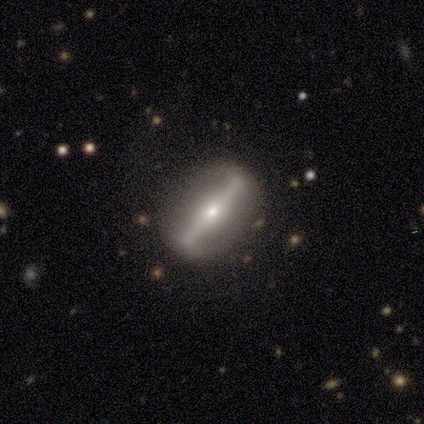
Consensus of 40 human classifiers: Smooth or featured: featured or disk — 80% (smooth — 15%)
Edge-on disk: no — 62% (yes — 38%)
Bar: strong — 95% (weak — 5%)
Spiral arms: no — 75% (yes — 25%)
Bulge size: small — 60% (moderate — 35%)
Merging: none — 74% (minor disturbance — 18%)